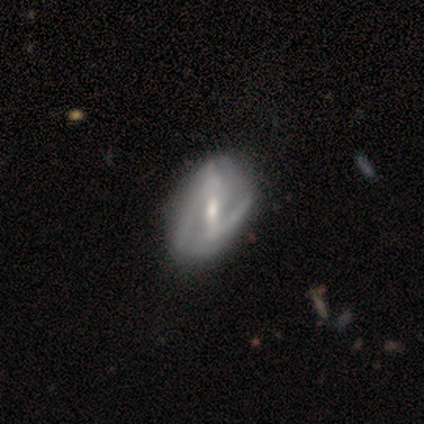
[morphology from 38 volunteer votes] A featured or disk galaxy (82%) with a strong bar (61%), 2 (65%) loose (50%) spiral arms (84%) and a small central bulge (55%).

Vote fractions:
- Smooth or featured? featured or disk: 82% / smooth: 16% / star or artifact: 3%
- Edge-on disk? no: 100% / yes: 0%
- Bar? strong: 61% / weak: 29% / no: 10%
- Spiral arms? yes: 84% / no: 16%
- Spiral winding? loose: 50% / medium: 35% / tight: 15%
- Spiral arm count? 2: 65% / can't tell: 23% / 1: 12% / 3: 0% / 4: 0% / more than 4: 0%
- Bulge size? small: 55% / moderate: 39% / none: 6% / dominant: 0% / large: 0%
- Merging? none: 70% / minor disturbance: 27% / major disturbance: 3% / merger: 0%